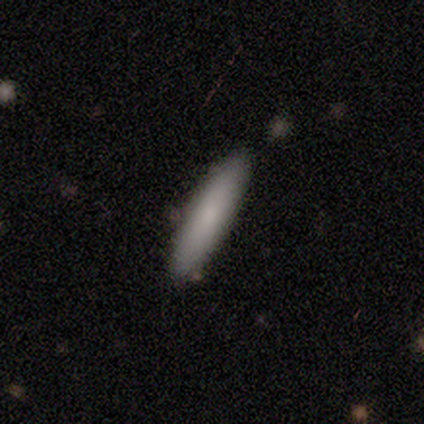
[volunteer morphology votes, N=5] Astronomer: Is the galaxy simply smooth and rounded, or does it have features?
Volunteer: smooth — 100%.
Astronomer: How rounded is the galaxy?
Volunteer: cigar-shaped — 80%.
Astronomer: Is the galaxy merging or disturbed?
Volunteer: none — 100%.